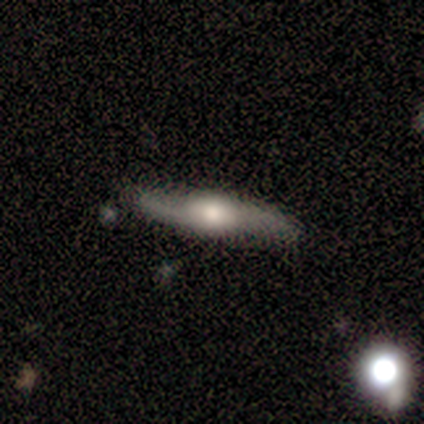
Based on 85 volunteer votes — A featured or disk galaxy (72%) viewed edge-on (69%) with a rounded central bulge (98%). Merging: none (83%).